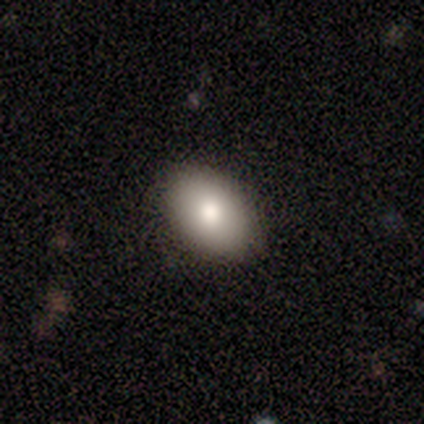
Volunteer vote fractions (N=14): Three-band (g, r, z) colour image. It shows a smooth galaxy with no disk features (93%) that is in between round and cigar-shaped (100%). Merging: none (85%).